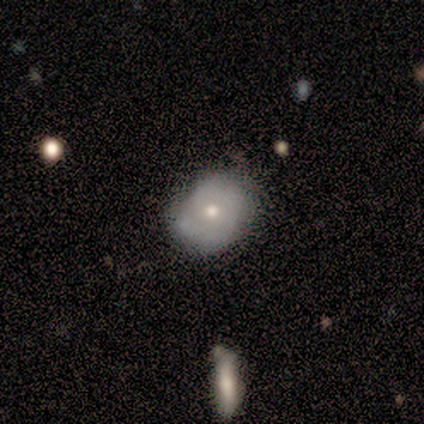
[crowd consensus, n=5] Q: Smooth or featured?
A: smooth (60%); runner-up: featured or disk (40%)
Q: How rounded?
A: round (100%)
Q: Merging?
A: none (60%); runner-up: minor disturbance (40%)